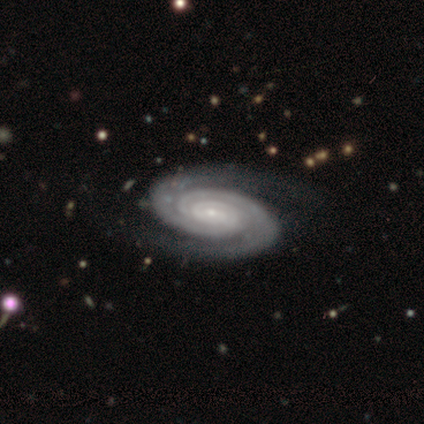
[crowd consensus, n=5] A featured or disk galaxy (100%) with no bar (60%), 2 (60%) tight (80%) spiral arms (100%) and a small central bulge (80%). Merging: none (100%).